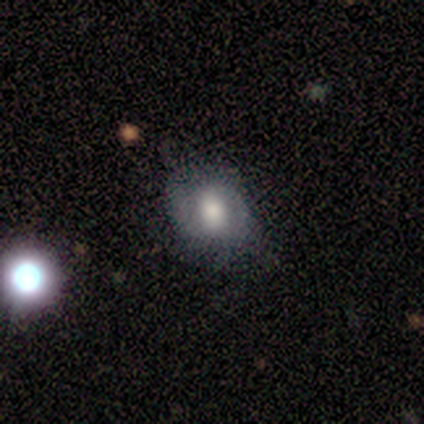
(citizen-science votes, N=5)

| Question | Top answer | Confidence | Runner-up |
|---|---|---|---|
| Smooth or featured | smooth | 60% | featured or disk (20%) |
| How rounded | round | 67% | in between (33%) |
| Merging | none | 50% | minor disturbance (25%) |